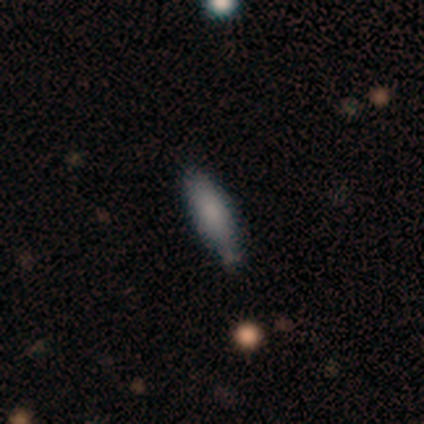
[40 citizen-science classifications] A smooth galaxy with no disk features (78%) that is in between round and cigar-shaped (58%).

Vote fractions:
- Smooth or featured? smooth: 78% / featured or disk: 15% / star or artifact: 8%
- How rounded? in between: 58% / cigar-shaped: 42% / round: 0%
- Merging? none: 62% / minor disturbance: 32% / merger: 5% / major disturbance: 0%